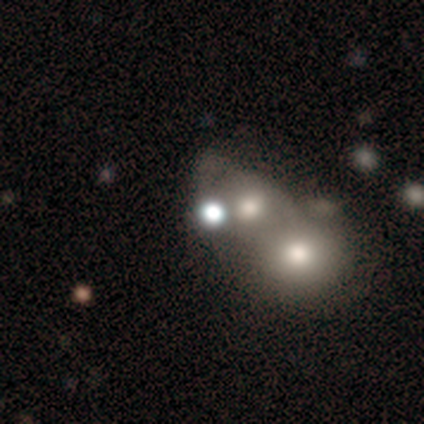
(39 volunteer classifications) Smooth or featured? smooth (46%)
How rounded? round (67%)
Merging? merger (63%)